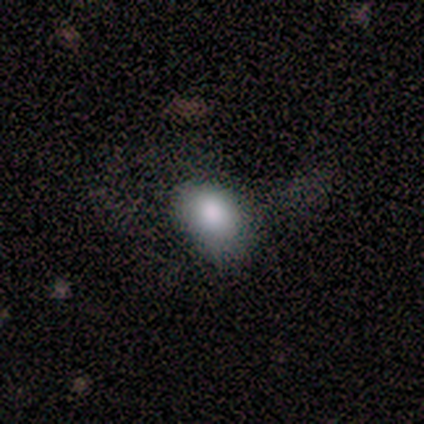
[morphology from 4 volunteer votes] Smooth or featured? smooth (100%)
How rounded? in between (75%)
Merging? none (75%)